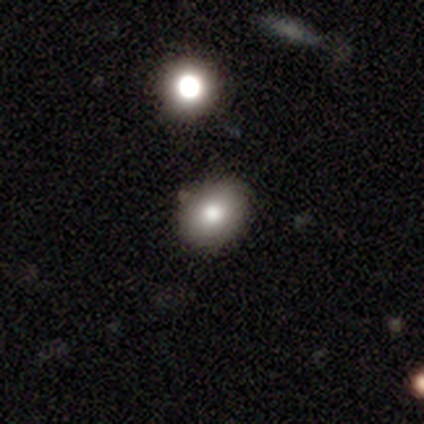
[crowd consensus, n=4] A smooth galaxy with no disk features (100%) that is round (75%).

Vote fractions:
- Smooth or featured? smooth: 100% / featured or disk: 0% / star or artifact: 0%
- How rounded? round: 75% / cigar-shaped: 25% / in between: 0%
- Merging? none: 50% (tied) / minor disturbance: 50% (tied) / major disturbance: 0% / merger: 0%